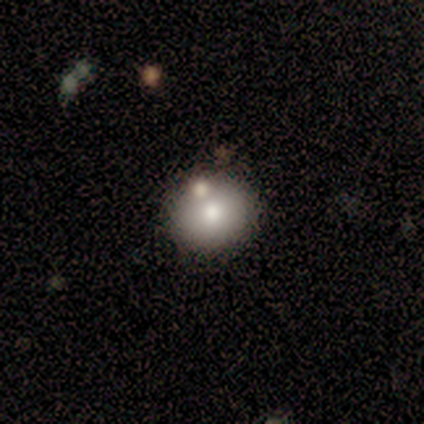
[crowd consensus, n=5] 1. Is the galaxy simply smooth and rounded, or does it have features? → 80% smooth, 20% featured or disk, 0% star or artifact.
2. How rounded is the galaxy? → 100% round, 0% in between, 0% cigar-shaped.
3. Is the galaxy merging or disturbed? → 60% none, 40% minor disturbance, 0% major disturbance, 0% merger.